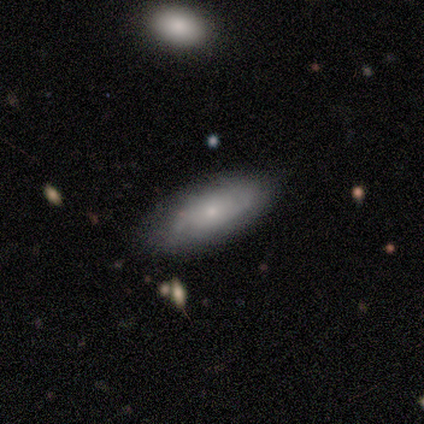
Smooth or featured? smooth (52%)
How rounded? in between (65%)
Merging? none (77%)